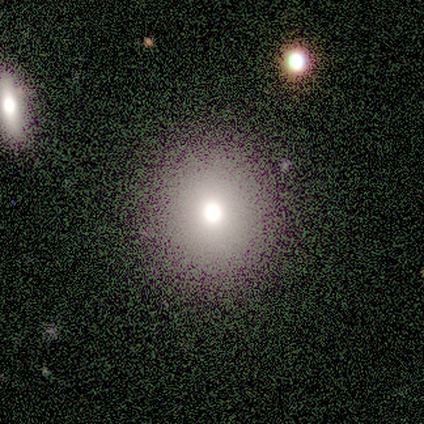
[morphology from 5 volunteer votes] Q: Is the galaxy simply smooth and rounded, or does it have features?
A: smooth — 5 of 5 (100%).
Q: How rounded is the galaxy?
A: round — 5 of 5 (100%).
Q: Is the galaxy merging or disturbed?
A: none — 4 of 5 (80%).